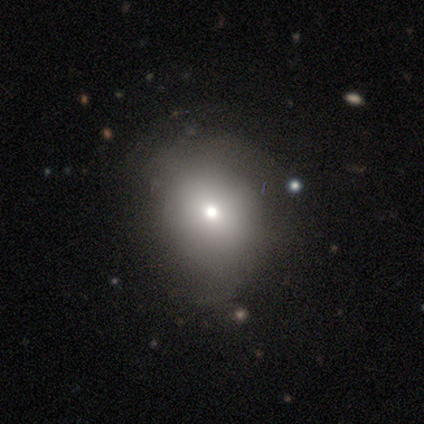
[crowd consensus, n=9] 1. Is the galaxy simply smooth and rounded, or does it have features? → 78% smooth, 11% featured or disk, 11% star or artifact.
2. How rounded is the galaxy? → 71% round, 29% in between, 0% cigar-shaped.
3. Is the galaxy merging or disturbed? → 88% none, 12% minor disturbance, 0% major disturbance, 0% merger.